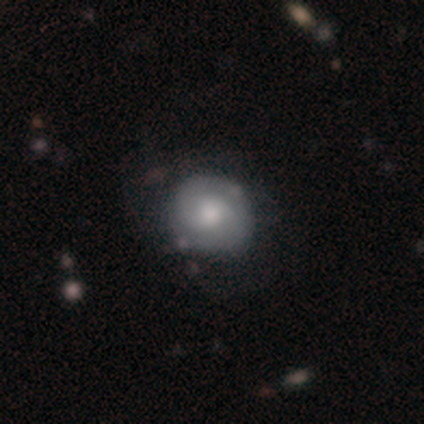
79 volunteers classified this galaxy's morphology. smooth-or-featured: featured or disk: 58% | smooth: 38% | star or artifact: 4%
  disk-edge-on: no: 100% | yes: 0%
    bar: no: 80% | weak: 20% | strong: 0%
    has-spiral-arms: yes: 74% | no: 26%
      spiral-winding: tight: 65% | medium: 18% | loose: 18%
      spiral-arm-count: 2: 82% | can't tell: 15% | 1: 3% | 3: 0% | 4: 0% | more than 4: 0%
    bulge-size: moderate: 65% | large: 15% | small: 13% | none: 4% | dominant: 2%
  merging: none: 34% | minor disturbance: 8% | major disturbance: 4% | merger: 4%